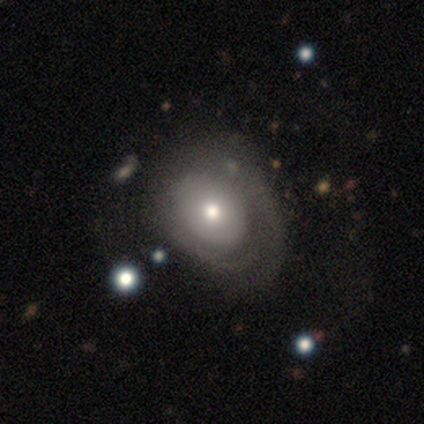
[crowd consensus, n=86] A smooth galaxy with no disk features (55%) that is in between round and cigar-shaped (57%). Merging: major disturbance (37%).